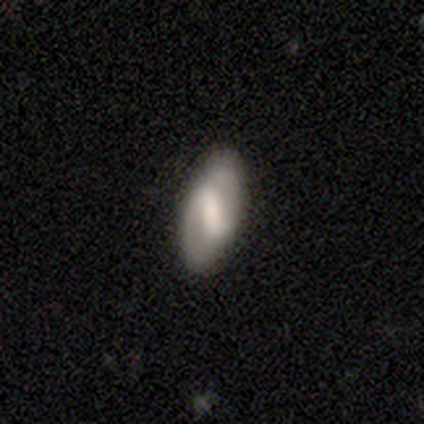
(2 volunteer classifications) Volunteers were most divided on "smooth or featured" (2-way tie): smooth: 50%, featured or disk: 50%, star or artifact: 0%. More confident: how rounded — in between (100%); merging — minor disturbance (100%).